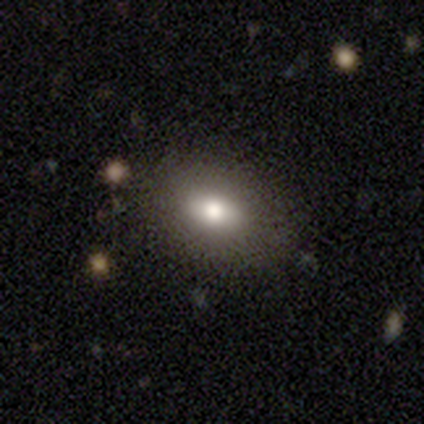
Smooth or featured: smooth — 40% (tied with featured or disk — 40%)
How rounded: in between — 100%
Merging: none — 100%